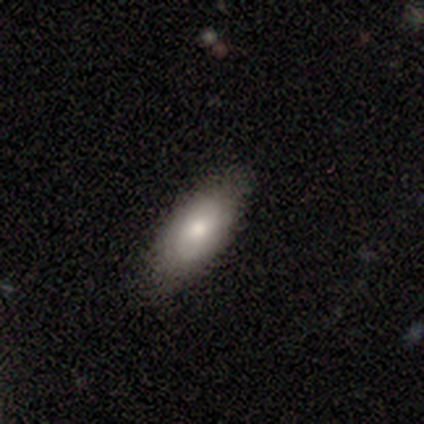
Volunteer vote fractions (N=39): Smooth or featured: smooth — 77% (featured or disk — 18%)
How rounded: in between — 87% (cigar-shaped — 13%)
Merging: none — 73% (minor disturbance — 27%)